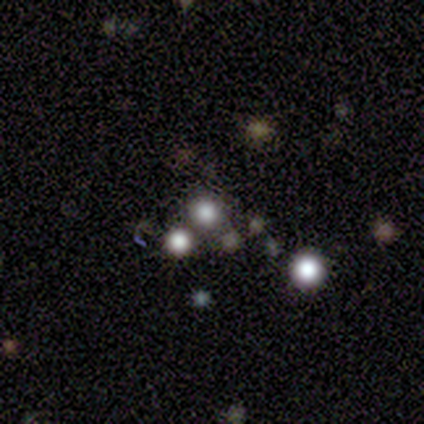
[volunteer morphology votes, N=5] Q: Smooth or featured?
A: smooth (40%); tied with: star or artifact (40%)
Q: How rounded?
A: round (100%)
Q: Merging?
A: none (67%); runner-up: merger (33%)